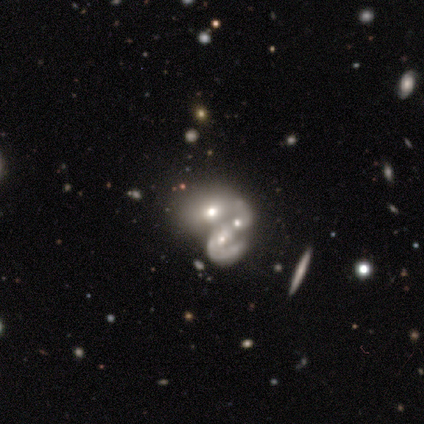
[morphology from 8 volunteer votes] Smooth or featured?
  - featured or disk: 75% *
  - smooth: 12%
  - star or artifact: 12%
Edge-on disk?
  - no: 83% *
  - yes: 17%
Bar?
  - no: 60% *
  - weak: 40%
  - strong: 0%
Spiral arms?
  - no: 60% *
  - yes: 40%
Bulge size?
  - moderate: 60% *
  - small: 40%
  - dominant: 0%
  - large: 0%
  - none: 0%
Merging?
  - merger: 86% *
  - minor disturbance: 14%
  - none: 0%
  - major disturbance: 0%